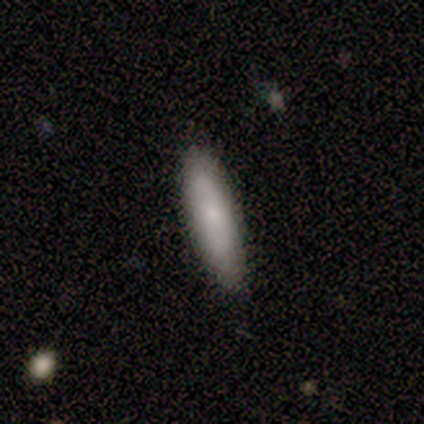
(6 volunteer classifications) smooth_or_featured: smooth (p=0.83) [alt: featured or disk p=0.17]
how_rounded: cigar-shaped (p=0.60) [alt: in between p=0.40]
merging: none (p=0.83) [alt: minor disturbance p=0.17]